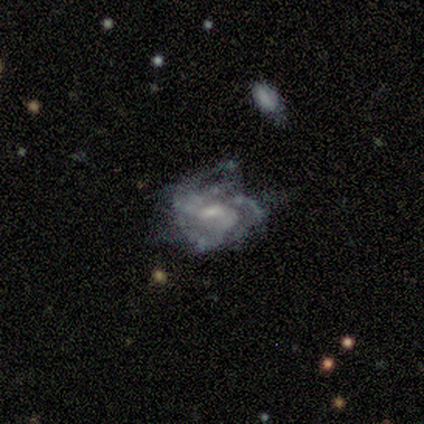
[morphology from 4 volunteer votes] Q: Smooth or featured?
A: featured or disk (75%); runner-up: smooth (25%)
Q: Edge-on disk?
A: no (100%)
Q: Bar?
A: weak (67%); runner-up: no (33%)
Q: Spiral arms?
A: yes (100%)
Q: Spiral winding?
A: medium (67%); runner-up: tight (33%)
Q: Spiral arm count?
A: 3 (33%); tied with: 4 (33%); can't tell (33%)
Q: Bulge size?
A: small (67%); runner-up: none (33%)
Q: Merging?
A: none (100%)